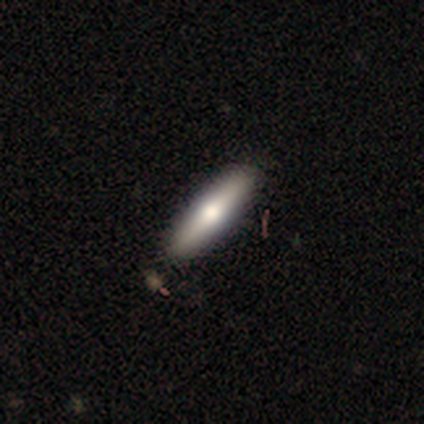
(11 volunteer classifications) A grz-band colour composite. It shows a smooth galaxy with no disk features (64%) that is cigar-shaped (86%). Merging: none (89%).